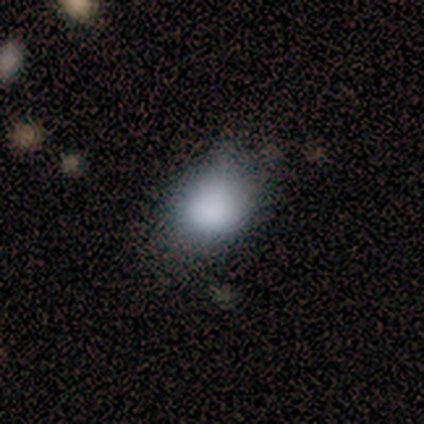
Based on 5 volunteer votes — Overall: smooth (100%). How rounded: round (60%; in between 40%). Merging: minor disturbance (60%; none 40%).